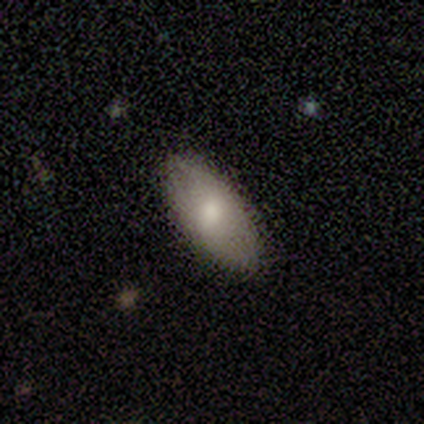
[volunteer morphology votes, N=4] smooth-or-featured: smooth: 100% | featured or disk: 0% | star or artifact: 0%
  how-rounded: in between: 100% | round: 0% | cigar-shaped: 0%
  merging: none: 50% (tied) | minor disturbance: 50% (tied) | major disturbance: 0% | merger: 0%